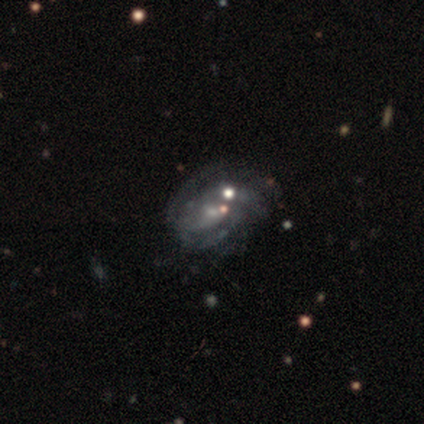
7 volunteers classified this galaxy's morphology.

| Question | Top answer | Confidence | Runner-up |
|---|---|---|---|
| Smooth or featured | featured or disk | 71% | smooth (14%) |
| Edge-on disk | no | 100% | — |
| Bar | no | 80% | weak (20%) |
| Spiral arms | yes | 100% | — |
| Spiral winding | medium | 60% | tight (20%) |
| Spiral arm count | can't tell | 100% | — |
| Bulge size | small | 100% | — |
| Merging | none | 33% | tied: major disturbance (33%) |